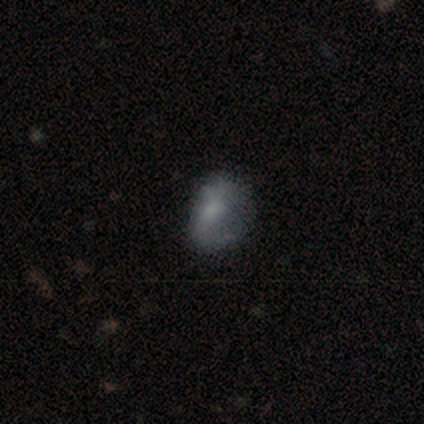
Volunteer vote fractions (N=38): A smooth galaxy with no disk features (55%) that is in between round and cigar-shaped (52%). Merging: none (43%).